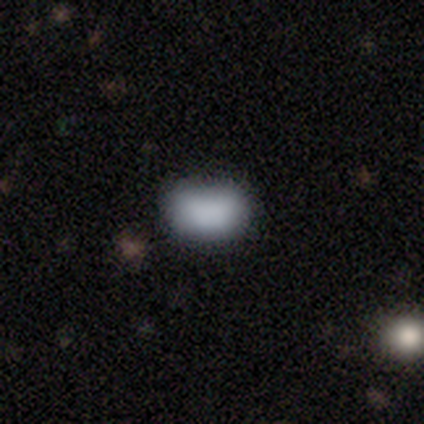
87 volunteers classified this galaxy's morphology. This appears to be a smooth galaxy with no disk features (77%) that is in between round and cigar-shaped (90%). Merging: none (71%).